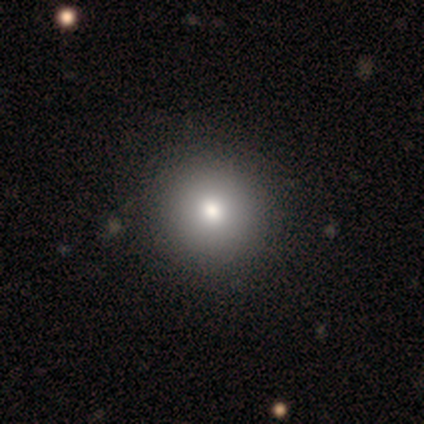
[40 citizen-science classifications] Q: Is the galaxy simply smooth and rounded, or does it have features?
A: smooth — 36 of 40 (90%).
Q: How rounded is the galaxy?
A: round — 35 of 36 (97%).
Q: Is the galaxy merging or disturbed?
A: none — 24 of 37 (65%).